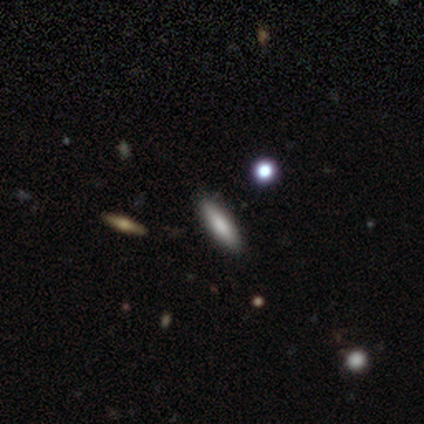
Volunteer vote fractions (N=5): Smooth or featured: smooth — 60% (featured or disk — 20%)
How rounded: round — 33% (tied with in between — 33%; cigar-shaped — 33%)
Merging: none — 50% (minor disturbance — 25%)